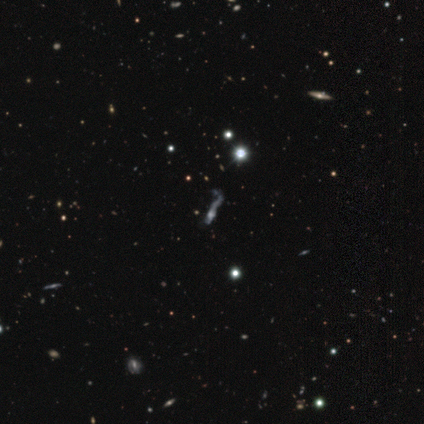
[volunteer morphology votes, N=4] star or artifact 75%, featured or disk 25%, smooth 0%.